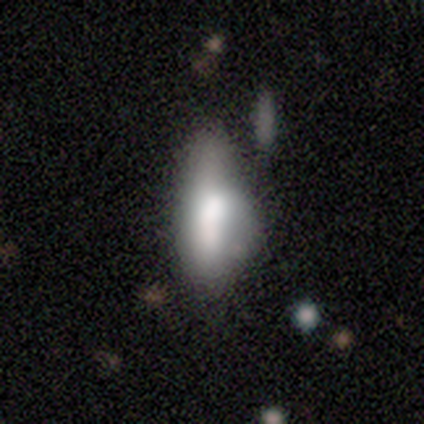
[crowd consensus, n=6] Volunteers were most divided on "smooth or featured": smooth: 67%, featured or disk: 17%, star or artifact: 17%. More confident: how rounded — in between (100%); merging — minor disturbance (80%).